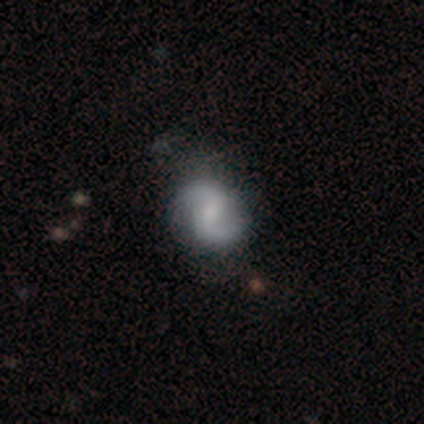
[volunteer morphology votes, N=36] featured or disk 75%, smooth 22%, star or artifact 3%. Down the decision tree: edge-on disk — no (96%); bar — weak (58%); spiral arms — yes (96%); spiral arm count — 2 (96%); spiral winding — medium (60%); bulge size — none (38%); merging — none (77%).